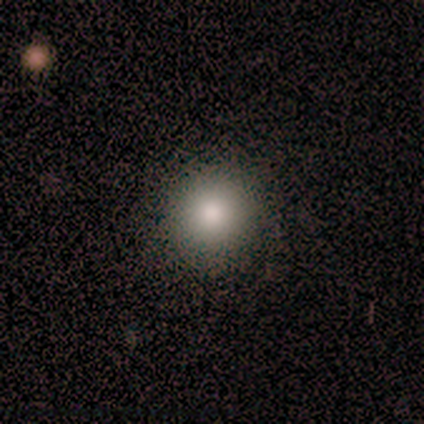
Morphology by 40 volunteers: This is clearly a smooth galaxy (95%). How rounded: clearly round (87%). Merging: clearly none (87%).